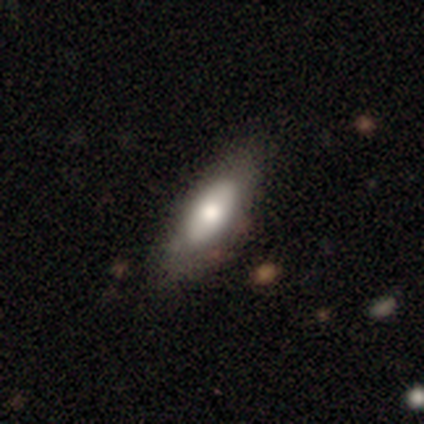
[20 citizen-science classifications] Q: Smooth or featured?
A: smooth (70%); runner-up: featured or disk (30%)
Q: How rounded?
A: in between (79%); runner-up: cigar-shaped (21%)
Q: Merging?
A: none (60%); runner-up: minor disturbance (35%)